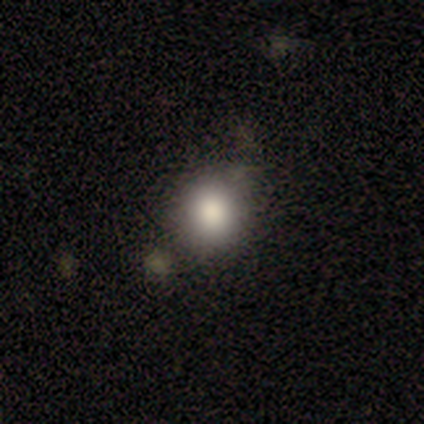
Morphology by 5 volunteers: Overall: smooth (100%). How rounded: round (100%). Merging: none (100%).